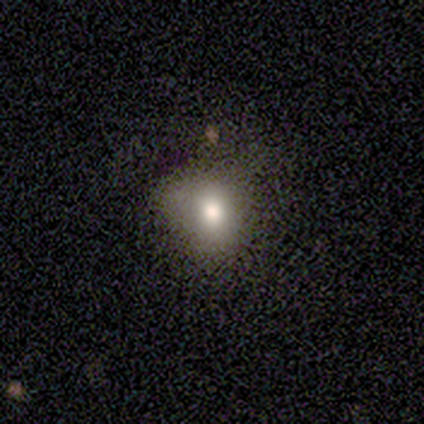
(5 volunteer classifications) Morphology: type=smooth (40%, tied with featured or disk); roundness=round (100%); merging=none (100%).